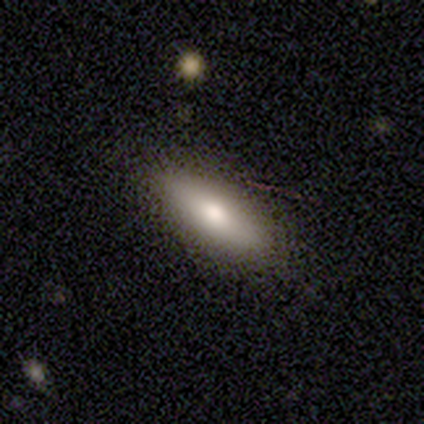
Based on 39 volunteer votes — smooth_or_featured: smooth (p=0.69) [alt: featured or disk p=0.21]
how_rounded: in between (p=0.59) [alt: cigar-shaped p=0.41]
merging: none (p=0.86) [alt: minor disturbance p=0.14]